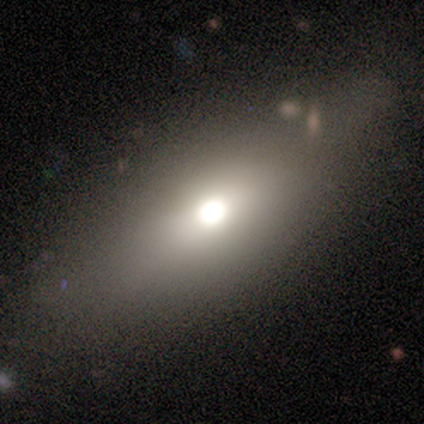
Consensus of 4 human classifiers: Q: Smooth or featured?
A: smooth (50%); tied with: featured or disk (50%)
Q: How rounded?
A: in between (100%)
Q: Merging?
A: none (100%)